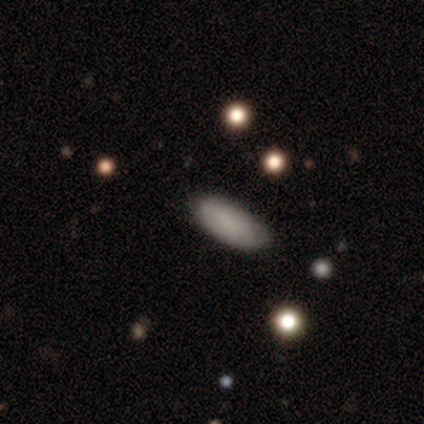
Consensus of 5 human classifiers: smooth 100%, featured or disk 0%, star or artifact 0%. Down the decision tree: how rounded — in between (100%); merging — none (100%).